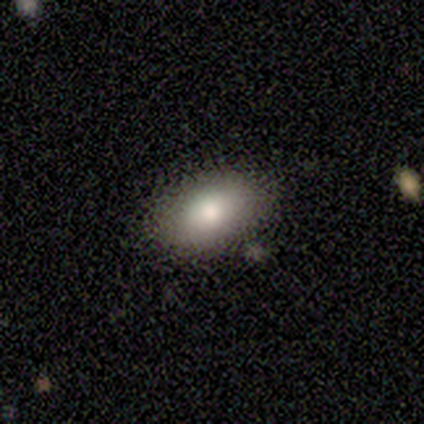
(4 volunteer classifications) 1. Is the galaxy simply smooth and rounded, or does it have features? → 100% smooth, 0% featured or disk, 0% star or artifact.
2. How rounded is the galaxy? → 100% in between, 0% round, 0% cigar-shaped.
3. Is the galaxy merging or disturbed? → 75% none, 25% merger, 0% minor disturbance, 0% major disturbance.